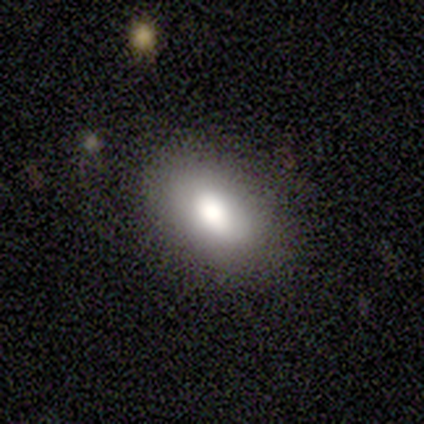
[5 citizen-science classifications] Smooth or featured? smooth (80%)
How rounded? in between (100%)
Merging? none (100%)